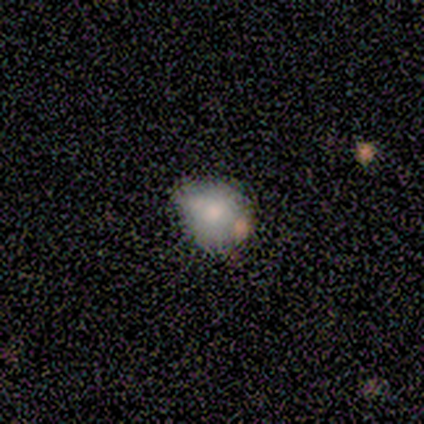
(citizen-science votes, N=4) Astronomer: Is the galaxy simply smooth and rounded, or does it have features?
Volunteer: smooth — 100%.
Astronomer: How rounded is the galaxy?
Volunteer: round — 50%, tied with in between at 50%.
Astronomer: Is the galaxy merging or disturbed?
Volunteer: minor disturbance — 50%.